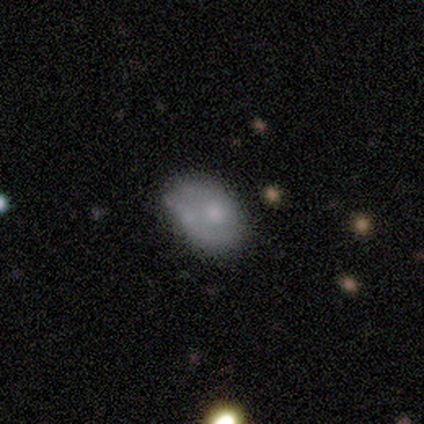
Smooth or featured: smooth — 40% (tied with featured or disk — 40%)
How rounded: in between — 100%
Merging: merger — 50% (none — 25%)